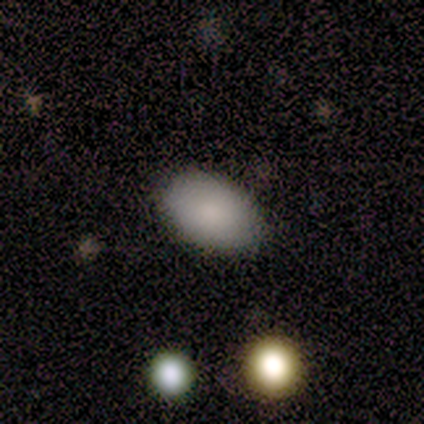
smooth-or-featured: smooth: 100% | featured or disk: 0% | star or artifact: 0%
  how-rounded: in between: 100% | round: 0% | cigar-shaped: 0%
  merging: none: 100% | minor disturbance: 0% | major disturbance: 0% | merger: 0%